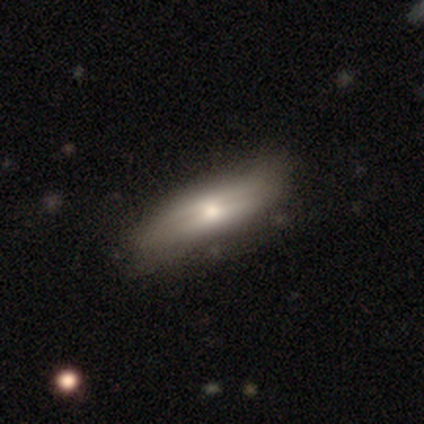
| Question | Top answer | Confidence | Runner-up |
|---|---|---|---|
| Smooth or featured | smooth | 50% | tied: featured or disk (50%) |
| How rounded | cigar-shaped | 100% | — |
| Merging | minor disturbance | 50% | none (25%) |